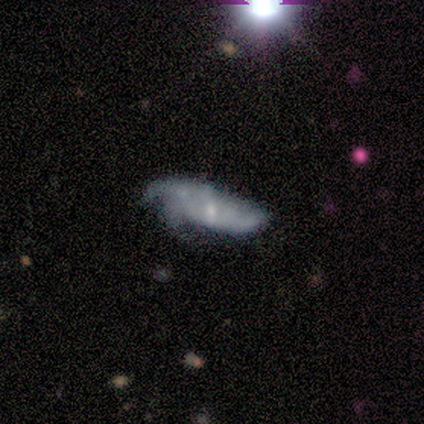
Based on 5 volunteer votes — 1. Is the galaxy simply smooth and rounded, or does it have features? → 60% featured or disk, 20% smooth, 20% star or artifact.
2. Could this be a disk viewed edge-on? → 100% no, 0% yes.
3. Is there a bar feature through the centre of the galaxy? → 67% weak, 33% no, 0% strong.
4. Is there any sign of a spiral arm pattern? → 67% yes, 33% no.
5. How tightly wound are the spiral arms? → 50% medium (tied), 50% loose (tied), 0% tight.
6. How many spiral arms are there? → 50% 3 (tied), 50% can't tell (tied), 0% 1, 0% 2, 0% 4, 0% more than 4.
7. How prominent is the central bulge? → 67% small, 33% moderate, 0% dominant, 0% large, 0% none.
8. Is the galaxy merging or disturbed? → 50% minor disturbance, 25% none, 25% merger, 0% major disturbance.